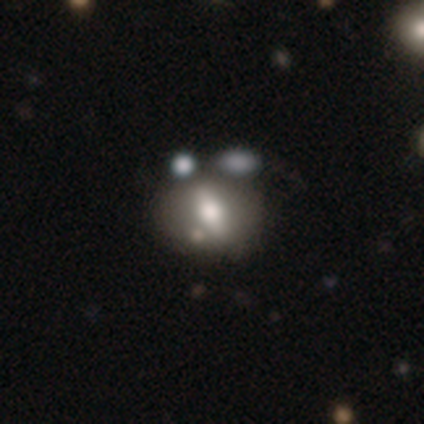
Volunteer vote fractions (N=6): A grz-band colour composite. It shows a star or artifact, not a galaxy (50%).